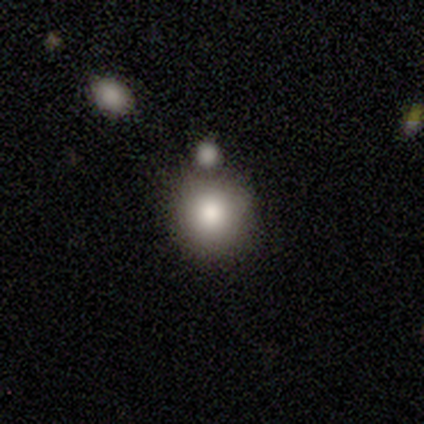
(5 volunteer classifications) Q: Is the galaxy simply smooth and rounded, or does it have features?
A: smooth — 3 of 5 (60%).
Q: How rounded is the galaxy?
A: round — 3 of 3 (100%).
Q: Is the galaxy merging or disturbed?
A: none — 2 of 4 (50%, tied with merger).